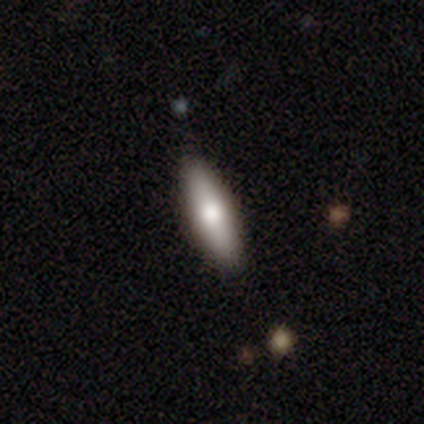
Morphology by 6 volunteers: This is likely a smooth galaxy (67%). How rounded: likely in between (75%). Merging: clearly none (83%).